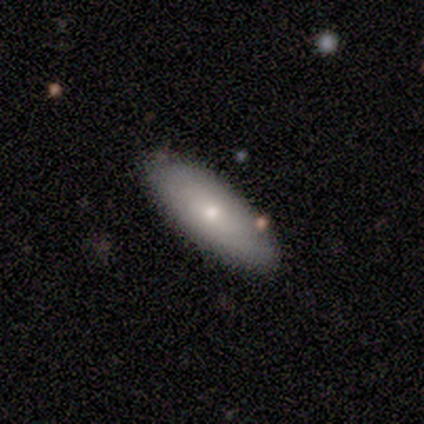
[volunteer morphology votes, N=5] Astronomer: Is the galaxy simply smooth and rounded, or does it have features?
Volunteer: smooth — 60%.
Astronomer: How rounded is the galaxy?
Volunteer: in between — 100%.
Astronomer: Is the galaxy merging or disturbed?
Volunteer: none — 100%.